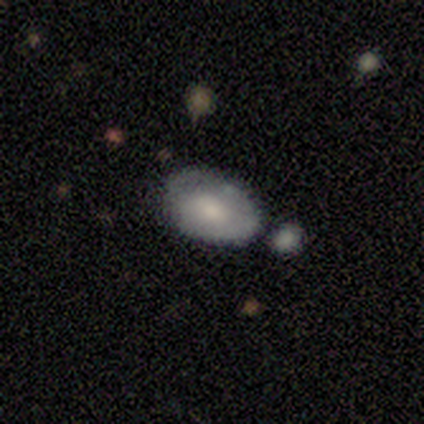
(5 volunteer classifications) Volunteers were most divided on "merging" (2-way tie): none: 40%, minor disturbance: 40%, major disturbance: 20%, merger: 0%. More confident: how rounded — in between (100%); smooth or featured — smooth (60%).